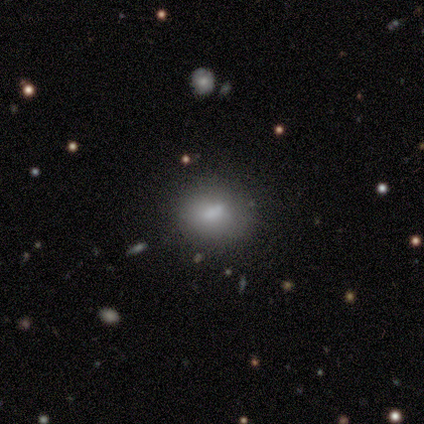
Smooth or featured? 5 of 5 (100%) said smooth. How rounded? 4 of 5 (80%) said round. Merging? 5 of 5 (100%) said none.